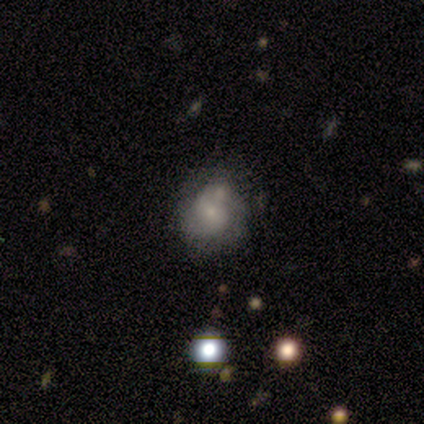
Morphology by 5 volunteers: Smooth or featured? smooth (60%)
How rounded? in between (67%)
Merging? none (60%)